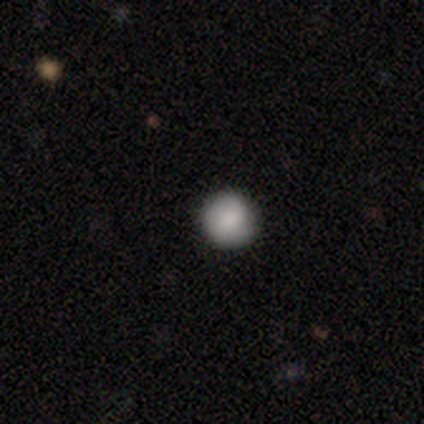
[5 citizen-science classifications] smooth 80%, star or artifact 20%, featured or disk 0%. Down the decision tree: how rounded — round (100%); merging — none (100%).